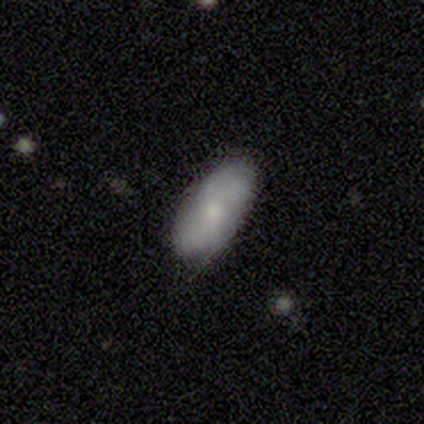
smooth_or_featured: smooth (p=0.60) [alt: featured or disk p=0.40]
how_rounded: in between (p=1.00)
merging: none (p=1.00)